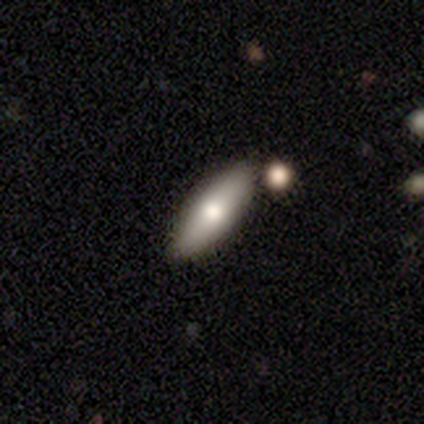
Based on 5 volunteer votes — Overall: smooth (80%). How rounded: in between (50%, tied with cigar-shaped). Merging: none (80%).